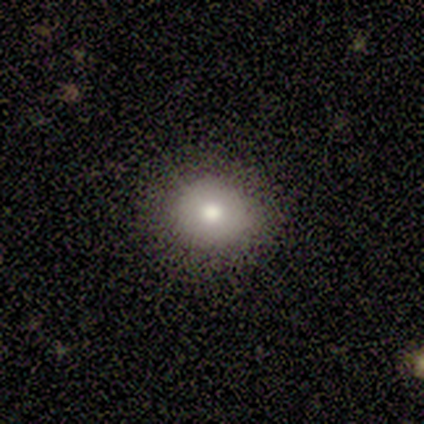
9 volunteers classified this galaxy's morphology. type=smooth (67%); roundness=round (50%, tied with in between); merging=none (75%).